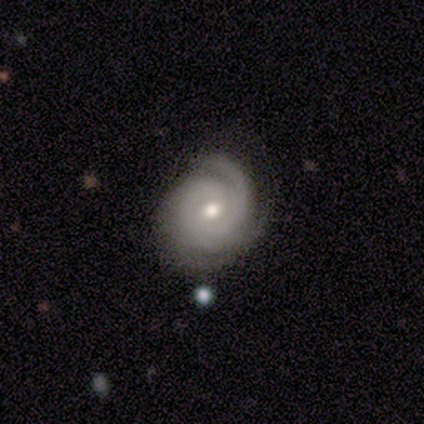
Smooth or featured?
  - featured or disk: 60% *
  - smooth: 40%
  - star or artifact: 0%
Edge-on disk?
  - no: 100% *
  - yes: 0%
Bar?
  - weak: 67% *
  - no: 33%
  - strong: 0%
Spiral arms?
  - yes: 100% *
  - no: 0%
Spiral winding?
  - tight: 100% *
  - medium: 0%
  - loose: 0%
Spiral arm count?
  - can't tell: 67% *
  - 3: 33%
  - 1: 0%
  - 2: 0%
  - 4: 0%
  - more than 4: 0%
Bulge size?
  - moderate: 67% *
  - small: 33%
  - dominant: 0%
  - large: 0%
  - none: 0%
Merging?
  - none: 60% *
  - minor disturbance: 40%
  - major disturbance: 0%
  - merger: 0%